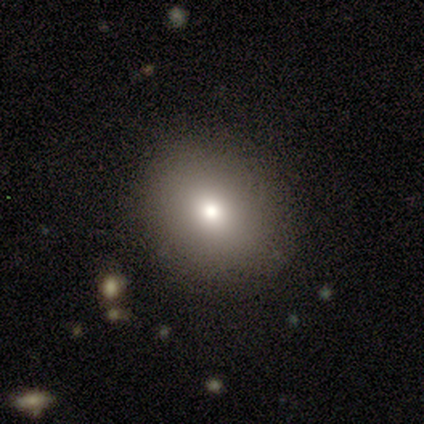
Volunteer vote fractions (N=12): smooth 67%, featured or disk 17%, star or artifact 17%. Down the decision tree: how rounded — round (62%); merging — none (70%).